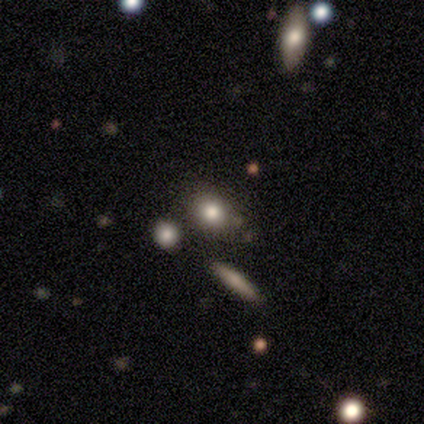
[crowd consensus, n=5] Volunteers were most divided on "merging" (2-way tie): none: 40%, major disturbance: 40%, minor disturbance: 20%, merger: 0%. More confident: smooth or featured — smooth (100%); how rounded — round (60%).